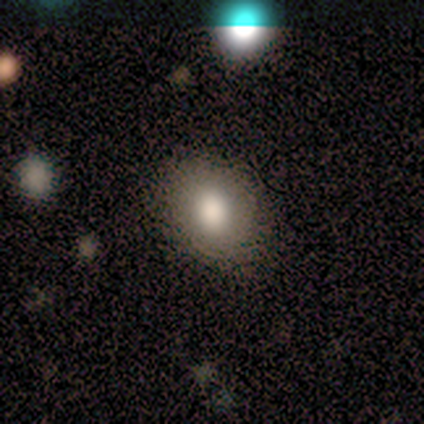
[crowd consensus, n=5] A smooth galaxy with no disk features (100%) that is in between round and cigar-shaped (100%).

Vote fractions:
- Smooth or featured? smooth: 100% / featured or disk: 0% / star or artifact: 0%
- How rounded? in between: 100% / round: 0% / cigar-shaped: 0%
- Merging? none: 100% / minor disturbance: 0% / major disturbance: 0% / merger: 0%